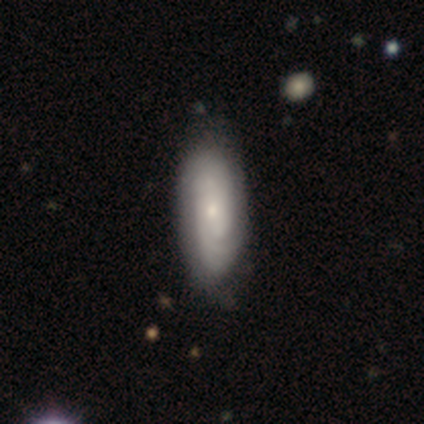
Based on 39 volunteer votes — smooth-or-featured: featured or disk: 74% | smooth: 21% | star or artifact: 5%
  disk-edge-on: no: 97% | yes: 3%
    bar: no: 71% | weak: 21% | strong: 7%
    has-spiral-arms: yes: 100% | no: 0%
      spiral-winding: tight: 75% | medium: 18% | loose: 7%
      spiral-arm-count: can't tell: 57% | 2: 36% | 4: 7% | 1: 0% | 3: 0% | more than 4: 0%
    bulge-size: small: 82% | moderate: 14% | none: 4% | dominant: 0% | large: 0%
  merging: none: 62% | minor disturbance: 8% | merger: 3% | major disturbance: 0%